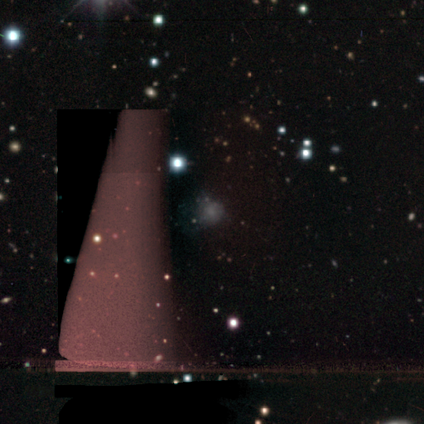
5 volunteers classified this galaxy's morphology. Volunteers were most divided on "smooth or featured": star or artifact: 60%, smooth: 20%, featured or disk: 20%.